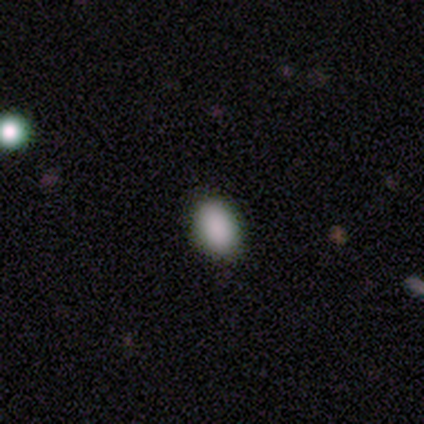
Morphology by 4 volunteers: Q: Smooth or featured?
A: smooth (100%)
Q: How rounded?
A: round (50%); tied with: in between (50%)
Q: Merging?
A: none (75%); runner-up: minor disturbance (25%)